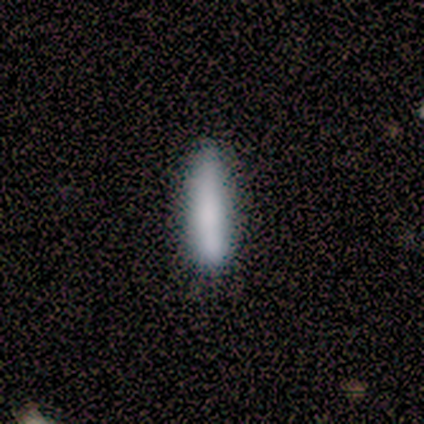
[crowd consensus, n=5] smooth 80%, star or artifact 20%, featured or disk 0%. Down the decision tree: how rounded — cigar-shaped (100%); merging — none (75%).